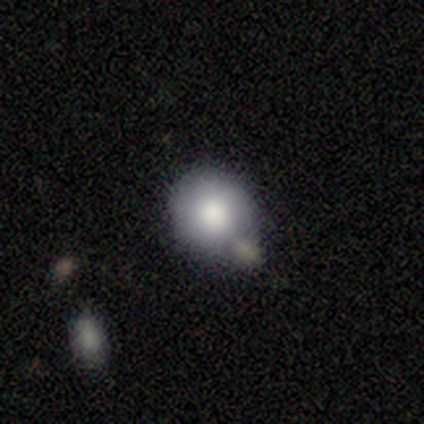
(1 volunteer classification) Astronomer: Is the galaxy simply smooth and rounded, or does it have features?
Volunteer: smooth — 100%.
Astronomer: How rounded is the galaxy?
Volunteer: round — 100%.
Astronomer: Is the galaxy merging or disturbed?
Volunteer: merger — 100%.